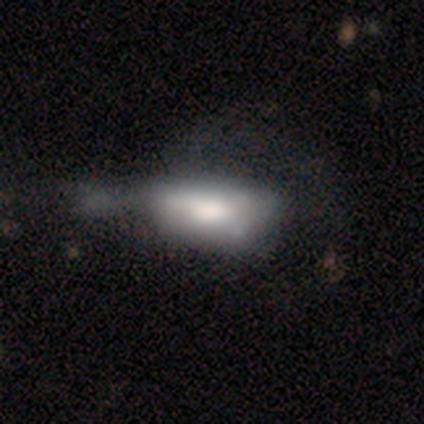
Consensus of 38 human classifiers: Volunteers were most divided on "merging": major disturbance: 33%, merger: 14%, minor disturbance: 11%, none: 8%. More confident: how rounded — in between (92%); smooth or featured — smooth (63%).